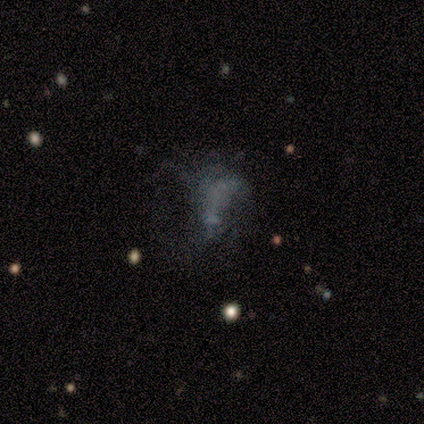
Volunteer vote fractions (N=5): smooth-or-featured: featured or disk: 80% | star or artifact: 20% | smooth: 0%
  disk-edge-on: no: 100% | yes: 0%
    bar: no: 75% | weak: 25% | strong: 0%
    has-spiral-arms: no: 75% | yes: 25%
    bulge-size: none: 75% | small: 25% | dominant: 0% | large: 0% | moderate: 0%
  merging: none: 75% | major disturbance: 25% | minor disturbance: 0% | merger: 0%